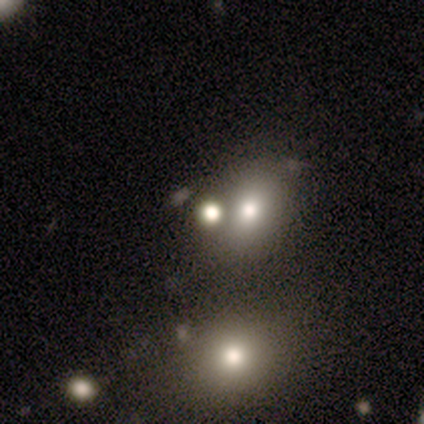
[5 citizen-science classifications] smooth 60%, star or artifact 40%, featured or disk 0%. Down the decision tree: how rounded — round (67%); merging — none (33%, tied with minor disturbance and merger).